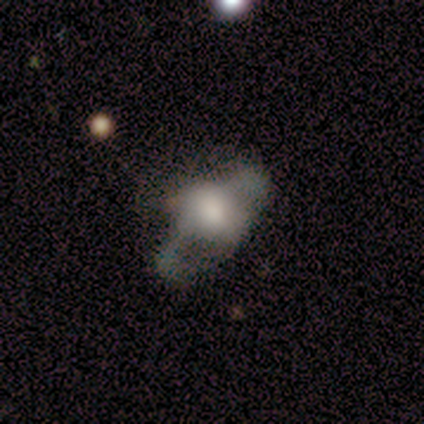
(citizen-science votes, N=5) Morphology: type=featured or disk (100%); edge-on=no (60%); bar=weak (67%); spiral arms=no (67%); bulge=large (67%); merging=none (100%).